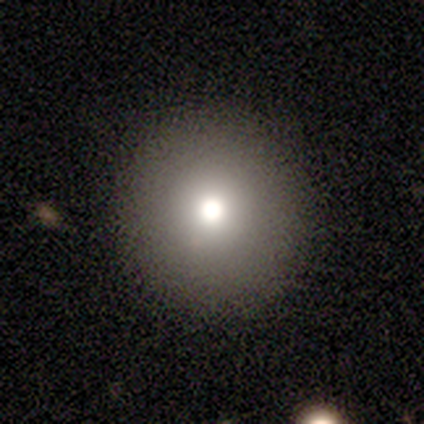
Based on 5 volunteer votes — Q: Smooth or featured?
A: smooth (80%); runner-up: featured or disk (20%)
Q: How rounded?
A: round (100%)
Q: Merging?
A: none (100%)